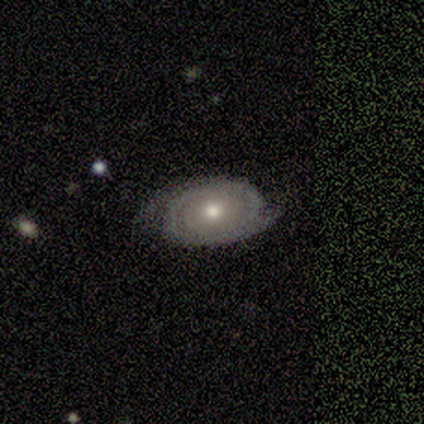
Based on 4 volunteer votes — A featured or disk galaxy (100%) with no bar (100%), 2 (67%) tight (100%) spiral arms (75%) and a moderate central bulge (100%).

Vote fractions:
- Smooth or featured? featured or disk: 100% / smooth: 0% / star or artifact: 0%
- Edge-on disk? no: 100% / yes: 0%
- Bar? no: 100% / strong: 0% / weak: 0%
- Spiral arms? yes: 75% / no: 25%
- Spiral winding? tight: 100% / medium: 0% / loose: 0%
- Spiral arm count? 2: 67% / can't tell: 33% / 1: 0% / 3: 0% / 4: 0% / more than 4: 0%
- Bulge size? moderate: 100% / dominant: 0% / large: 0% / small: 0% / none: 0%
- Merging? none: 75% / minor disturbance: 25% / major disturbance: 0% / merger: 0%